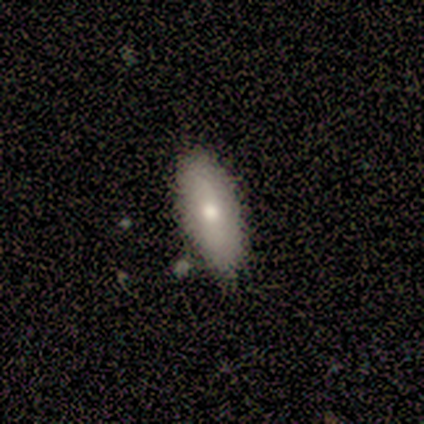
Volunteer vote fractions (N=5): Morphology: type=smooth (100%); roundness=in between (80%); merging=none (100%).